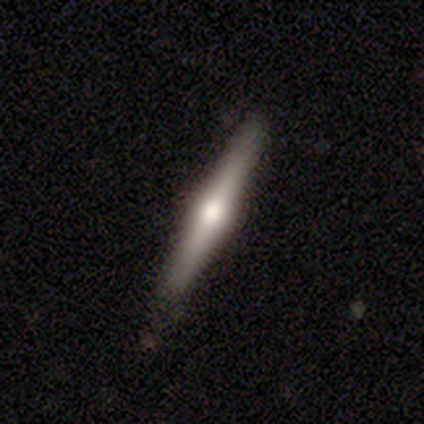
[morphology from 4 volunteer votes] A featured or disk galaxy (75%) viewed edge-on (100%) with a rounded central bulge (100%). Merging: none (100%).